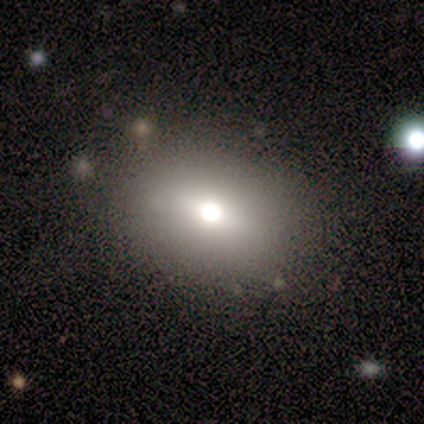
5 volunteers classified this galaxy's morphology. Smooth or featured? 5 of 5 (100%) said smooth. How rounded? 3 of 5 (60%) said in between. Merging? 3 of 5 (60%) said none.